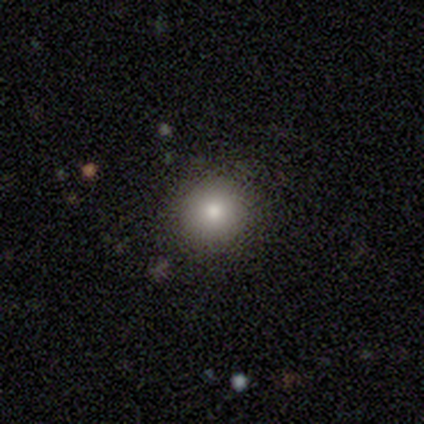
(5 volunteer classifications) Smooth or featured? 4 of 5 (80%) said smooth. How rounded? 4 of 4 (100%) said round. Merging? 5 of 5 (100%) said none.